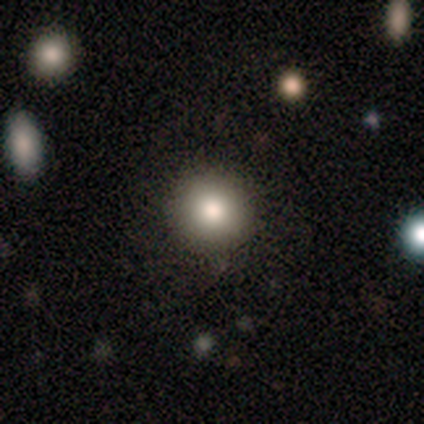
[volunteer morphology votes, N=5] smooth_or_featured: smooth (p=0.60) [alt: featured or disk p=0.20]
how_rounded: round (p=1.00)
merging: none (p=1.00)